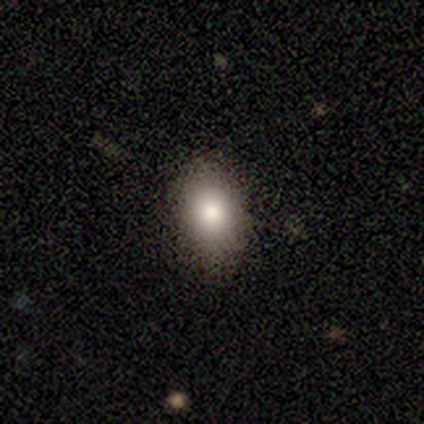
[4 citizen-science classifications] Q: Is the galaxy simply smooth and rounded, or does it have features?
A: smooth — 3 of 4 (75%).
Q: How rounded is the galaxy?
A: in between — 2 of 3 (67%).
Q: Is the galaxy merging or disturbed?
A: none — 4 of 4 (100%).